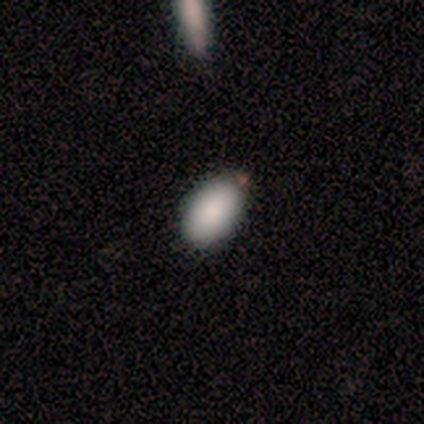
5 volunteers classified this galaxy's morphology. Smooth or featured: smooth — 60% (featured or disk — 20%)
How rounded: in between — 100%
Merging: none — 50% (tied with minor disturbance — 50%)